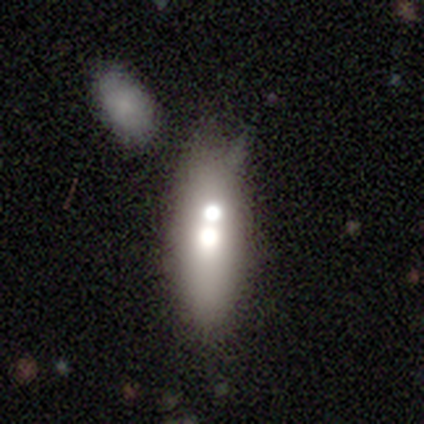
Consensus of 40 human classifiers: smooth_or_featured: smooth (p=0.60) [alt: featured or disk p=0.30]
how_rounded: in between (p=0.71) [alt: cigar-shaped p=0.21]
merging: merger (p=0.64)